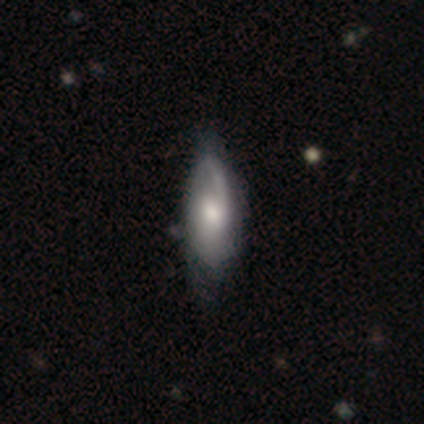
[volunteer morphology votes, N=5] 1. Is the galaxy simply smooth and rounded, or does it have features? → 80% featured or disk, 20% star or artifact, 0% smooth.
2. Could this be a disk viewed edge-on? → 100% no, 0% yes.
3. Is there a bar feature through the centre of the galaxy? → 75% no, 25% weak, 0% strong.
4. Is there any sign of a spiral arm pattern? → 50% yes (tied), 50% no (tied).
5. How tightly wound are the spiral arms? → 100% medium, 0% tight, 0% loose.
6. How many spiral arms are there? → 50% 2 (tied), 50% can't tell (tied), 0% 1, 0% 3, 0% 4, 0% more than 4.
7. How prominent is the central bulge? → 75% moderate, 25% large, 0% dominant, 0% small, 0% none.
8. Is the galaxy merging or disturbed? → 50% none, 25% minor disturbance, 25% major disturbance, 0% merger.